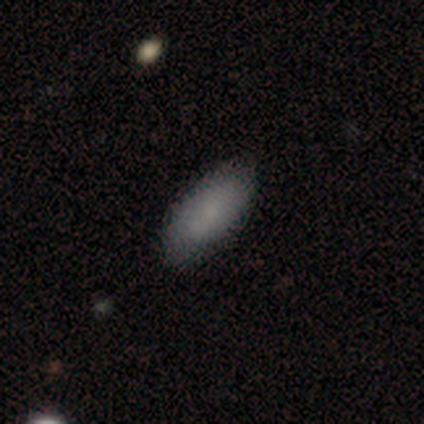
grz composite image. It shows a smooth galaxy with no disk features (87%) that is in between round and cigar-shaped (100%). Merging: none (100%).